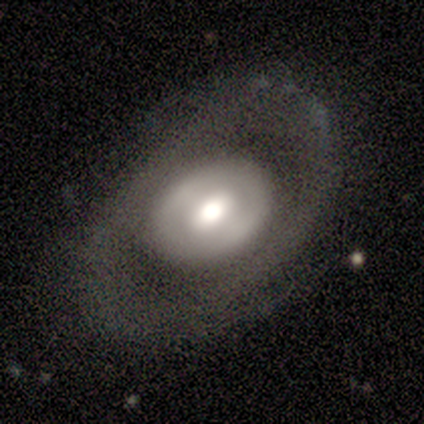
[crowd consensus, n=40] smooth-or-featured: featured or disk: 55% | smooth: 32% | star or artifact: 12%
  disk-edge-on: no: 95% | yes: 5%
    bar: no: 57% | weak: 38% | strong: 5%
    has-spiral-arms: no: 71% | yes: 29%
    bulge-size: moderate: 67% | large: 29% | dominant: 5% | small: 0% | none: 0%
  merging: none: 77% | minor disturbance: 11% | major disturbance: 11% | merger: 0%